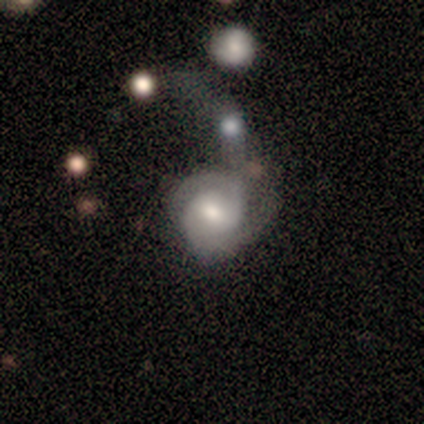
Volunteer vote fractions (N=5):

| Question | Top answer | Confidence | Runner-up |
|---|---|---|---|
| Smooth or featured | featured or disk | 80% | smooth (20%) |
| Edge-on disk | no | 100% | — |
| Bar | weak | 50% | strong (25%) |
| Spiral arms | yes | 75% | no (25%) |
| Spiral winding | loose | 67% | tight (33%) |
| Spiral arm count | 1 | 67% | 2 (33%) |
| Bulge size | small | 50% | large (25%) |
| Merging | major disturbance | 60% | minor disturbance (20%) |